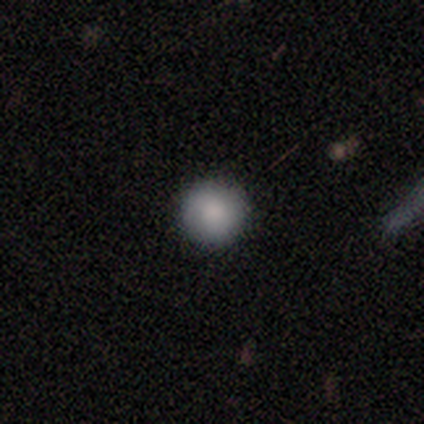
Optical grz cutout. It shows a smooth galaxy with no disk features (100%) that is round (100%). Merging: none (100%).